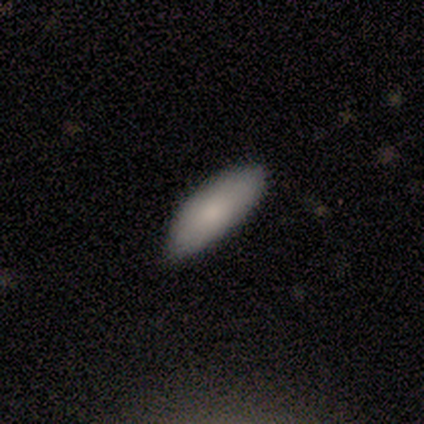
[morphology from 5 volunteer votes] A smooth galaxy with no disk features (80%) that is in between round and cigar-shaped (75%). Merging: minor disturbance (50%).